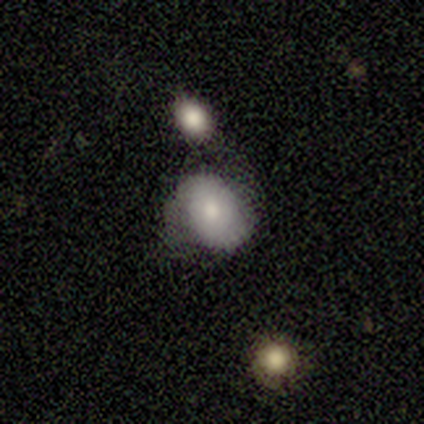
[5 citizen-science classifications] smooth_or_featured: featured or disk (p=0.60) [alt: smooth p=0.40]
disk_edge_on: no (p=1.00)
bar: no (p=0.67) [alt: weak p=0.33]
has_spiral_arms: yes (p=1.00)
spiral_winding: medium (p=1.00)
spiral_arm_count: 2 (p=1.00)
bulge_size: dominant (p=0.33) [tied with: large p=0.33, moderate p=0.33]
merging: none (p=1.00)